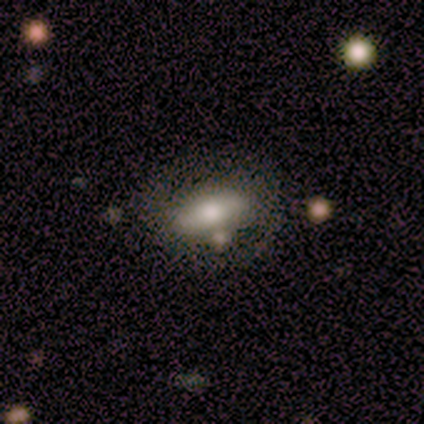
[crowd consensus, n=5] smooth-or-featured: featured or disk: 80% | smooth: 20% | star or artifact: 0%
  disk-edge-on: no: 100% | yes: 0%
    bar: no: 75% | strong: 25% | weak: 0%
    has-spiral-arms: yes: 50% (tied) | no: 50% (tied)
      spiral-winding: medium: 50% (tied) | loose: 50% (tied) | tight: 0%
      spiral-arm-count: 2: 100% | 1: 0% | 3: 0% | 4: 0% | more than 4: 0% | can't tell: 0%
    bulge-size: dominant: 25% (tied) | moderate: 25% (tied) | small: 25% (tied) | none: 25% (tied) | large: 0%
  merging: minor disturbance: 60% | none: 40% | major disturbance: 0% | merger: 0%